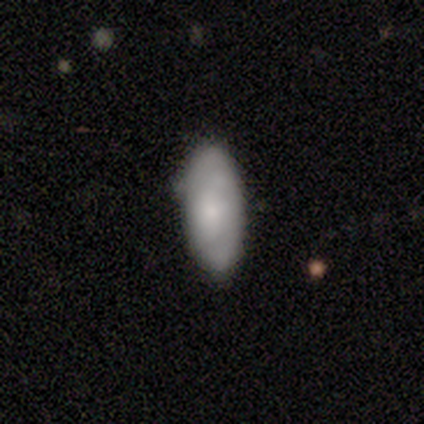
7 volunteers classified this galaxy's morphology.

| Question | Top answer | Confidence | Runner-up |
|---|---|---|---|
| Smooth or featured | smooth | 71% | featured or disk (14%) |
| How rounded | in between | 100% | — |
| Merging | none | 67% | minor disturbance (33%) |